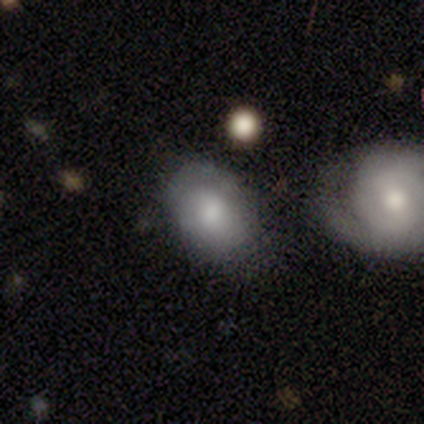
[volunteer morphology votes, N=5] smooth_or_featured: smooth (p=1.00)
how_rounded: in between (p=1.00)
merging: none (p=0.80) [alt: minor disturbance p=0.20]